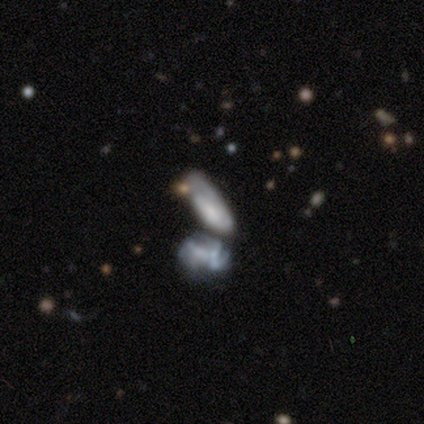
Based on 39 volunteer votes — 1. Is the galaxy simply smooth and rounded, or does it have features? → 49% smooth, 44% featured or disk, 8% star or artifact.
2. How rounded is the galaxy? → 58% in between, 32% cigar-shaped, 11% round.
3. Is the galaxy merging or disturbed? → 58% merger, 0% none, 0% minor disturbance, 0% major disturbance.